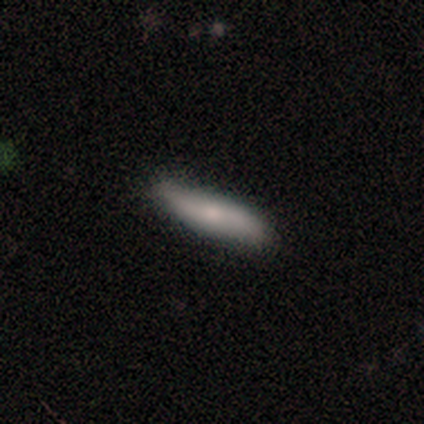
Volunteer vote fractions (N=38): Overall: featured or disk (53%; smooth 39%). Edge-on disk: no (55%; yes 45%). Bar: no (73%). Spiral arms: yes (64%; no 36%). Spiral arm count: 2 (86%). Spiral winding: loose (71%). Bulge size: small (55%; moderate 27%). Merging: none (83%).